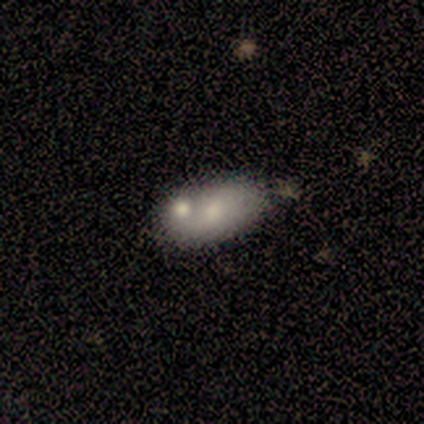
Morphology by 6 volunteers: A smooth galaxy with no disk features (50%, tied with featured or disk) that is in between round and cigar-shaped (100%).

Vote fractions:
- Smooth or featured? smooth: 50% (tied) / featured or disk: 50% (tied) / star or artifact: 0%
- How rounded? in between: 100% / round: 0% / cigar-shaped: 0%
- Merging? merger: 50% / none: 33% / major disturbance: 17% / minor disturbance: 0%